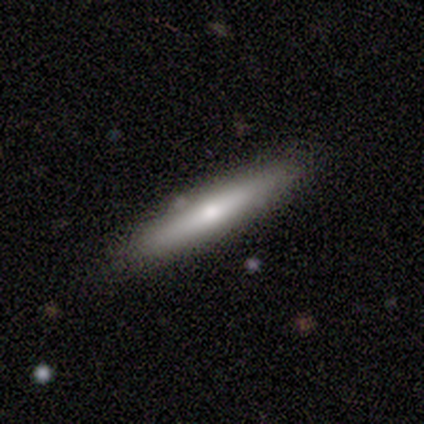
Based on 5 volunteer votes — A smooth galaxy with no disk features (80%) that is cigar-shaped (75%). Merging: none (60%).